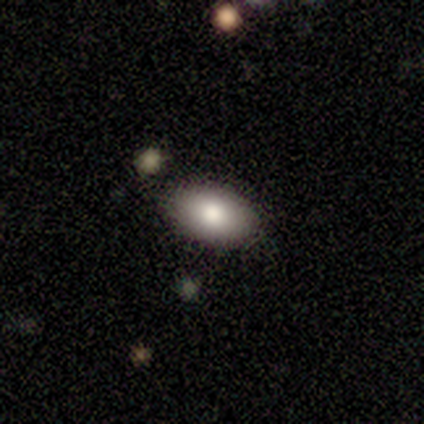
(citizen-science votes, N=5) smooth 80%, star or artifact 20%, featured or disk 0%. Down the decision tree: how rounded — in between (100%); merging — none (75%).